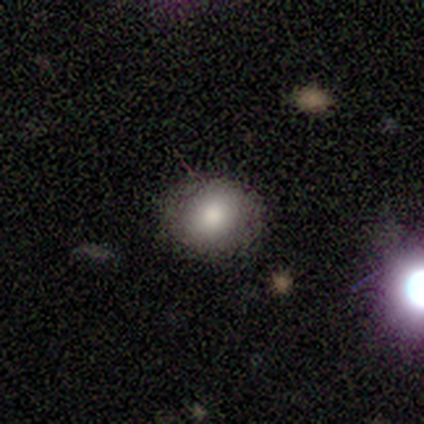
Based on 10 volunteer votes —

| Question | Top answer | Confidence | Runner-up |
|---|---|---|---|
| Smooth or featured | smooth | 80% | featured or disk (20%) |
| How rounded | round | 62% | in between (38%) |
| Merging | none | 100% | — |